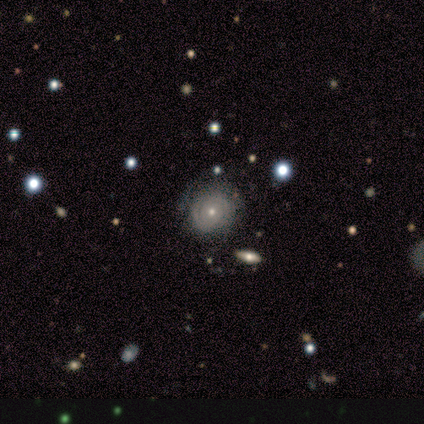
smooth-or-featured: featured or disk: 100% | smooth: 0% | star or artifact: 0%
  disk-edge-on: no: 100% | yes: 0%
    bar: no: 100% | strong: 0% | weak: 0%
    has-spiral-arms: yes: 67% | no: 33%
      spiral-winding: tight: 100% | medium: 0% | loose: 0%
      spiral-arm-count: can't tell: 100% | 1: 0% | 2: 0% | 3: 0% | 4: 0% | more than 4: 0%
    bulge-size: small: 67% | moderate: 33% | dominant: 0% | large: 0% | none: 0%
  merging: minor disturbance: 100% | none: 0% | major disturbance: 0% | merger: 0%